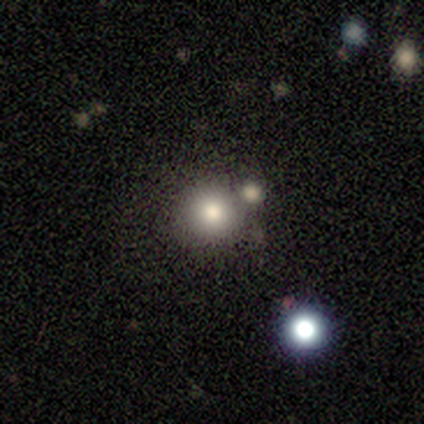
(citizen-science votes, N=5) Smooth or featured: smooth — 60% (featured or disk — 20%)
How rounded: round — 100%
Merging: none — 75% (merger — 25%)